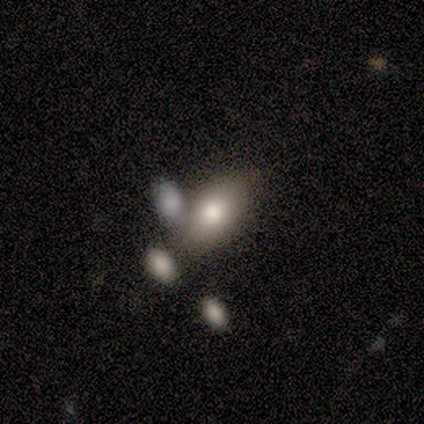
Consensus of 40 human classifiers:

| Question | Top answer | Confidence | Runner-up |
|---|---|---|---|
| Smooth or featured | smooth | 72% | featured or disk (22%) |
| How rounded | in between | 93% | round (7%) |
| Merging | none | 47% | merger (29%) |